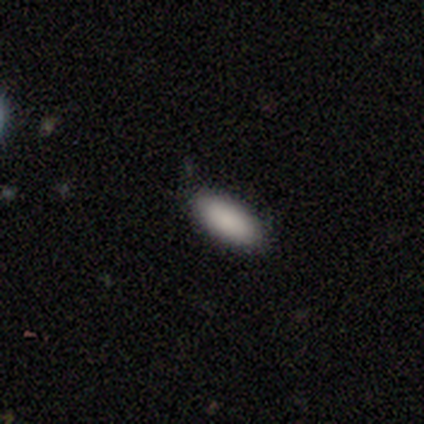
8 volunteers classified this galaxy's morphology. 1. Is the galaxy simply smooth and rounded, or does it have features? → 100% smooth, 0% featured or disk, 0% star or artifact.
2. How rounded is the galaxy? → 75% in between, 25% cigar-shaped, 0% round.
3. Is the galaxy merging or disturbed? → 50% none (tied), 50% minor disturbance (tied), 0% major disturbance, 0% merger.